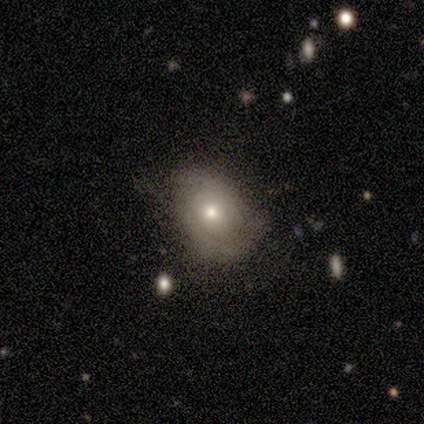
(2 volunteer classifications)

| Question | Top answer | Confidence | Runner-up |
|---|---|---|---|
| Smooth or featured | smooth | 50% | tied: featured or disk (50%) |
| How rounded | in between | 100% | — |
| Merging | none | 50% | tied: minor disturbance (50%) |